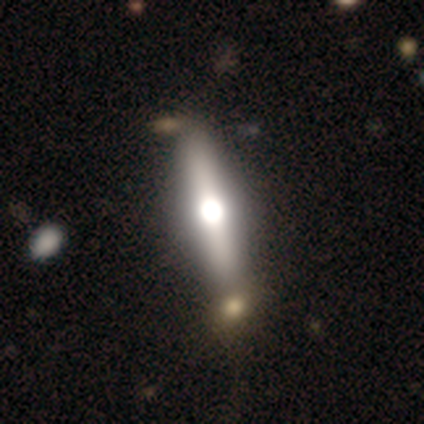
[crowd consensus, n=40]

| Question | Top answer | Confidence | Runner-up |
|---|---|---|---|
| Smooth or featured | smooth | 48% | tied: featured or disk (48%) |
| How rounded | cigar-shaped | 74% | in between (26%) |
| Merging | none | 50% | minor disturbance (8%) |